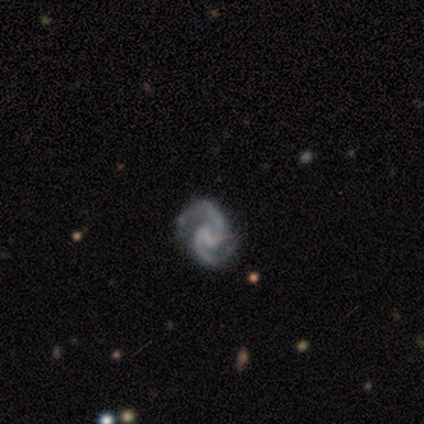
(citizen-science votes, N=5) Smooth or featured?
  - featured or disk: 100% *
  - smooth: 0%
  - star or artifact: 0%
Edge-on disk?
  - no: 100% *
  - yes: 0%
Bar?
  - weak: 60% *
  - strong: 20%
  - no: 20%
Spiral arms?
  - yes: 100% *
  - no: 0%
Spiral winding?
  - medium: 100% *
  - tight: 0%
  - loose: 0%
Spiral arm count?
  - 2: 100% *
  - 1: 0%
  - 3: 0%
  - 4: 0%
  - more than 4: 0%
  - can't tell: 0%
Bulge size?
  - none: 60% *
  - moderate: 20%
  - small: 20%
  - dominant: 0%
  - large: 0%
Merging?
  - none: 40% * (tied)
  - minor disturbance: 40% * (tied)
  - major disturbance: 20%
  - merger: 0%